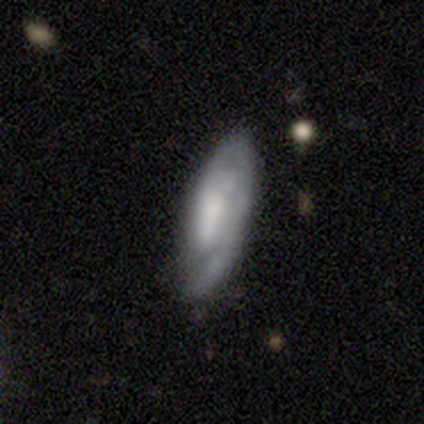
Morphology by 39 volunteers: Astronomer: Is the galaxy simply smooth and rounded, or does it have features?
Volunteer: featured or disk — 74%.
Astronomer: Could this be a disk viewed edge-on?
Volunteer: no — 90%.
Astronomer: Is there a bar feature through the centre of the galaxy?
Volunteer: weak — 46% (runner-up: no, 31%).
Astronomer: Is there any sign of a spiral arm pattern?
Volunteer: yes — 92%.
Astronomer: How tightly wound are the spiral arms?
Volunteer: medium — 46% (runner-up: tight, 42%).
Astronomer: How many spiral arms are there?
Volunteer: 1 — 38% (runner-up: 2, 29%).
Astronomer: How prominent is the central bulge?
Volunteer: none — 35% (runner-up: moderate, 31%).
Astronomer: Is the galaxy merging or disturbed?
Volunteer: none — 51% (runner-up: minor disturbance, 28%).